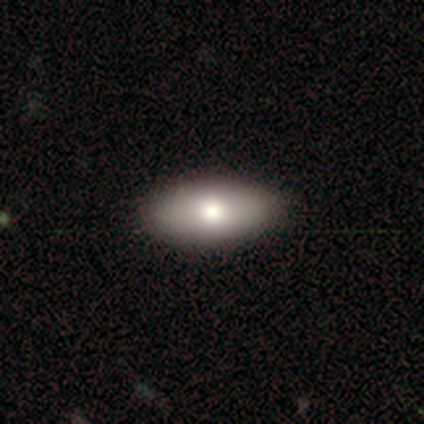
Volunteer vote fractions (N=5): smooth 100%, featured or disk 0%, star or artifact 0%. Down the decision tree: how rounded — in between (80%); merging — none (100%).